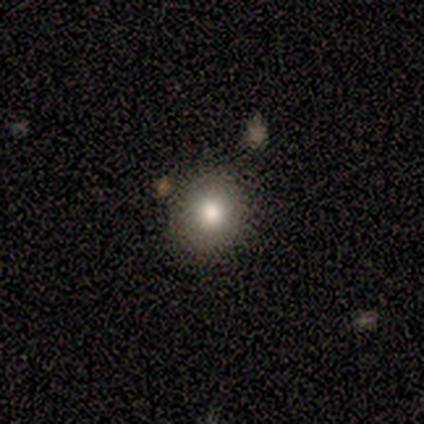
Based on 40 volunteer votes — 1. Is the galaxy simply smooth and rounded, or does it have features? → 90% smooth, 8% star or artifact, 2% featured or disk.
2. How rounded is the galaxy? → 83% round, 17% in between, 0% cigar-shaped.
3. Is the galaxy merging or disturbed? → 70% none, 8% minor disturbance, 3% merger, 0% major disturbance.